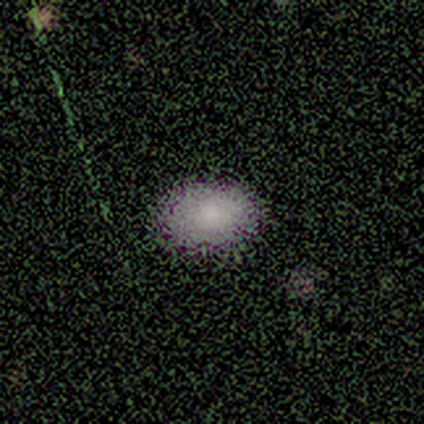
smooth-or-featured: smooth: 100% | featured or disk: 0% | star or artifact: 0%
  how-rounded: in between: 100% | round: 0% | cigar-shaped: 0%
  merging: none: 80% | minor disturbance: 20% | major disturbance: 0% | merger: 0%